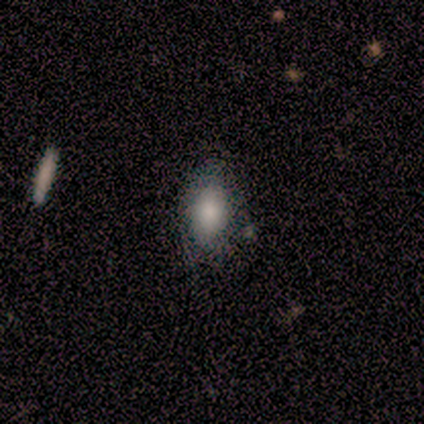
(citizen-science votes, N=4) Q: Smooth or featured?
A: smooth (100%)
Q: How rounded?
A: in between (100%)
Q: Merging?
A: none (50%); runner-up: minor disturbance (25%)